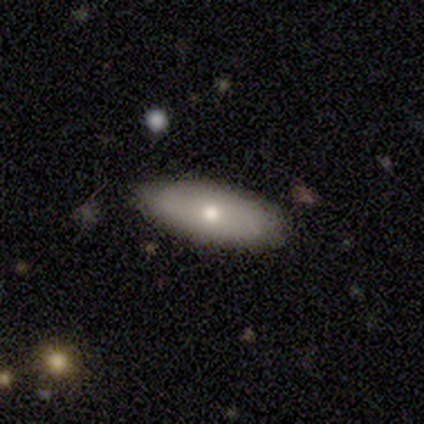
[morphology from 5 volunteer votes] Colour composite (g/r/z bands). It shows a smooth galaxy with no disk features (40%, tied with featured or disk) that is in between round and cigar-shaped (100%). Merging: none (100%).